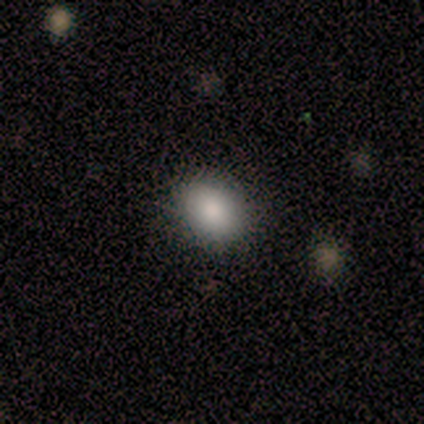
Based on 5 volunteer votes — Volunteers were most divided on "how rounded": round: 75%, in between: 25%, cigar-shaped: 0%. More confident: merging — none (100%); smooth or featured — smooth (80%).